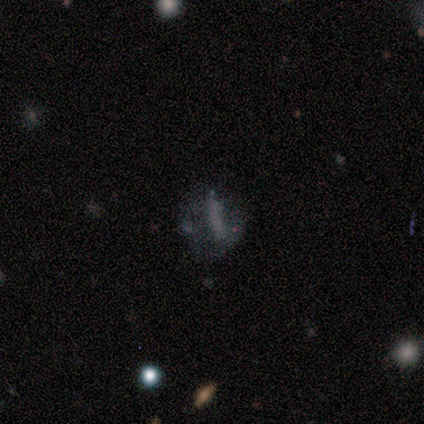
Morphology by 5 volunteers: type=smooth (40%, tied with star or artifact); roundness=round (50%, tied with in between); merging=none (33%, tied with minor disturbance and major disturbance).